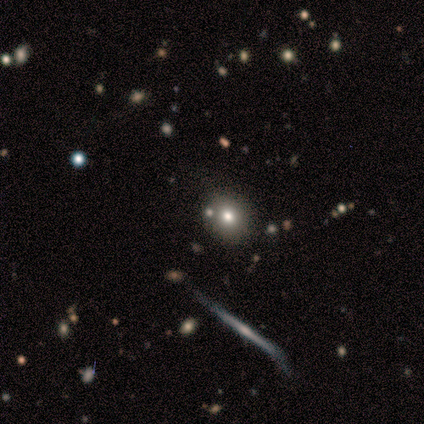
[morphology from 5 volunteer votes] smooth_or_featured: featured or disk (p=0.60) [alt: smooth p=0.20]
disk_edge_on: no (p=0.67) [alt: yes p=0.33]
bar: no (p=1.00)
has_spiral_arms: no (p=1.00)
bulge_size: moderate (p=1.00)
merging: none (p=1.00)